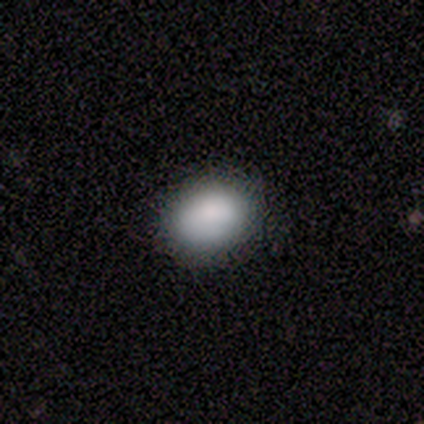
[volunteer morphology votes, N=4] Smooth or featured?
  - smooth: 75% *
  - star or artifact: 25%
  - featured or disk: 0%
How rounded?
  - in between: 100% *
  - round: 0%
  - cigar-shaped: 0%
Merging?
  - none: 100% *
  - minor disturbance: 0%
  - major disturbance: 0%
  - merger: 0%